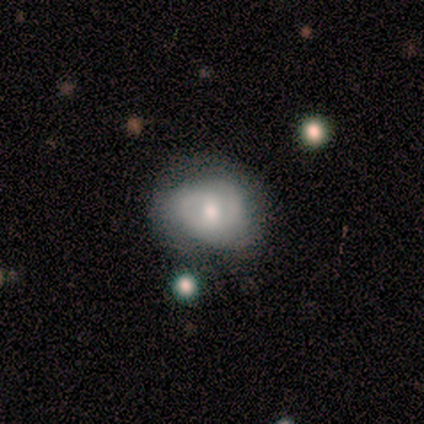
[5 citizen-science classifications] This is likely a featured or disk galaxy (60%). It is clearly not viewed edge-on (100%). Bar: likely no (67%). Spiral arm pattern: likely no (67%). Central bulge: clearly small (100%). Merging: clearly none (80%).